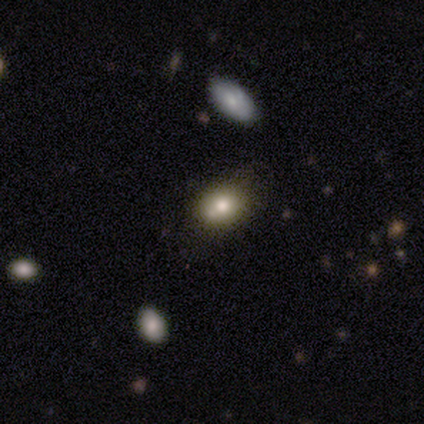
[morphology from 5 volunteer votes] smooth_or_featured: smooth (p=0.60) [alt: featured or disk p=0.20]
how_rounded: round (p=0.67) [alt: in between p=0.33]
merging: none (p=0.75) [alt: minor disturbance p=0.25]